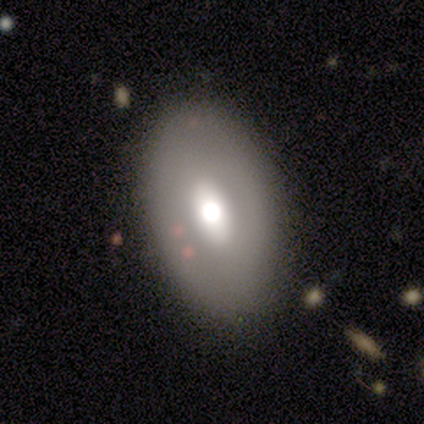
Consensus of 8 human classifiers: Overall: smooth (62%; featured or disk 38%). How rounded: in between (100%). Merging: none (62%; minor disturbance 25%).